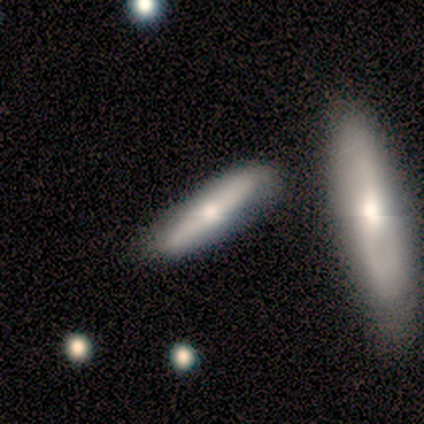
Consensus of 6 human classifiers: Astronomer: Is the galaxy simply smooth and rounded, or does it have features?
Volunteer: featured or disk — 67%.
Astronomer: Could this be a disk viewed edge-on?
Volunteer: yes — 75%.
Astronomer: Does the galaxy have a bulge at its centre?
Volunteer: rounded — 100%.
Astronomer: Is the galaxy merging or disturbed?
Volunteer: none — 40%, tied with minor disturbance at 40%.